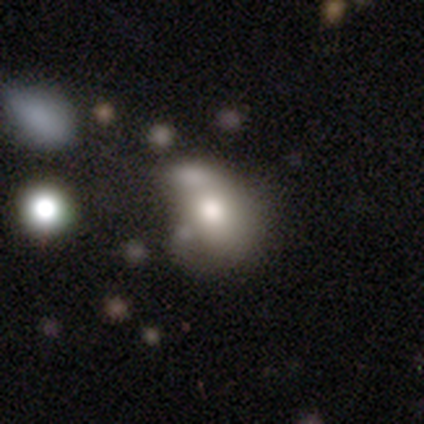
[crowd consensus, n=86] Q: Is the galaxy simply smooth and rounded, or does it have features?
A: smooth — 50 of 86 (58%).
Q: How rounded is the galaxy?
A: in between — 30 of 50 (60%).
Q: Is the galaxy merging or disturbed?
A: merger — 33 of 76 (43%).